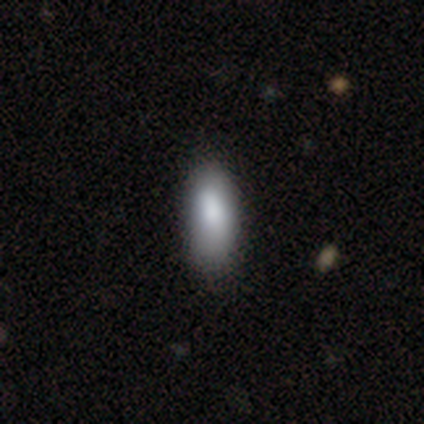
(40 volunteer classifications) Overall: smooth (95%). How rounded: in between (89%). Merging: none (48%; minor disturbance 12%).